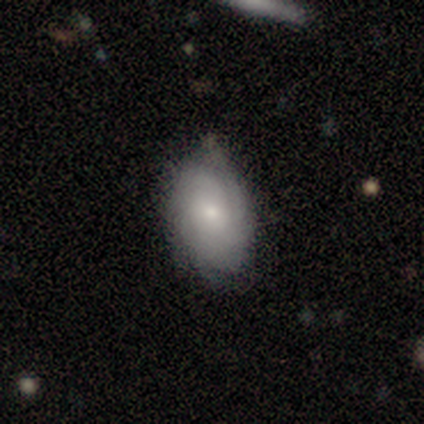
Smooth or featured? 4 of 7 (57%) said featured or disk. Edge-on disk? 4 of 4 (100%) said no. Bar? 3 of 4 (75%) said no. Spiral arms? 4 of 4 (100%) said yes. Spiral winding? 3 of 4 (75%) said tight. Spiral arm count? 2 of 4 (50%) said 2. Bulge size? 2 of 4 (50%, tied with small) said large. Merging? 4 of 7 (57%) said none.